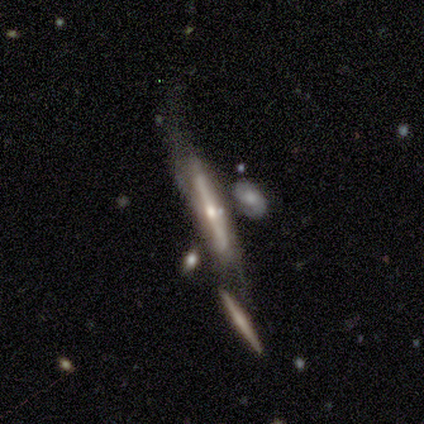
Morphology: type=featured or disk (60%); edge-on=yes (100%); edge-on bulge=boxy (33%, tied with none and rounded); merging=none (80%).